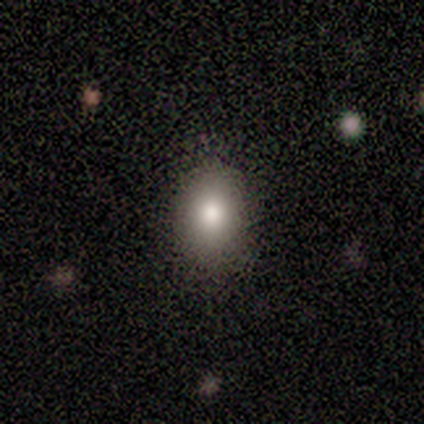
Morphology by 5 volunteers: This appears to be a smooth galaxy with no disk features (80%) that is in between round and cigar-shaped (100%). Merging: none (100%).